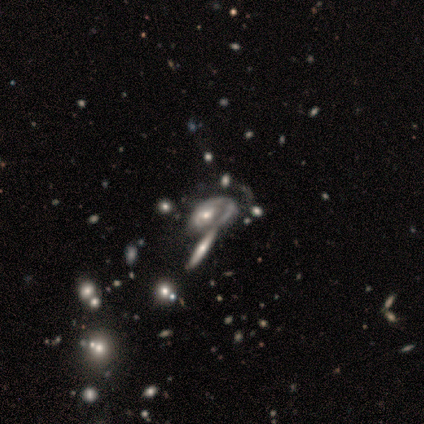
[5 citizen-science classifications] A featured or disk galaxy (60%) with no bar (100%), medium (100%) spiral arms (50%, tied with no) and a large central bulge (50%, tied with moderate). Merging: none (33%, tied with minor disturbance and major disturbance).